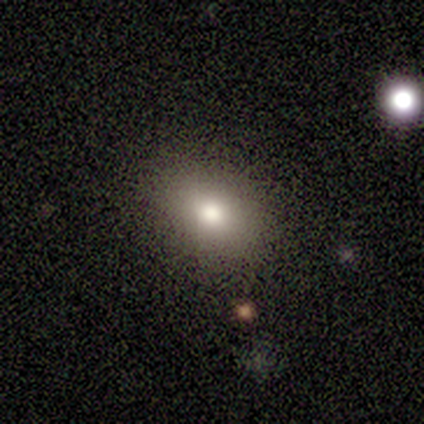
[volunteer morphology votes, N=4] This appears to be a smooth galaxy with no disk features (75%) that is in between round and cigar-shaped (100%). Merging: none (67%).